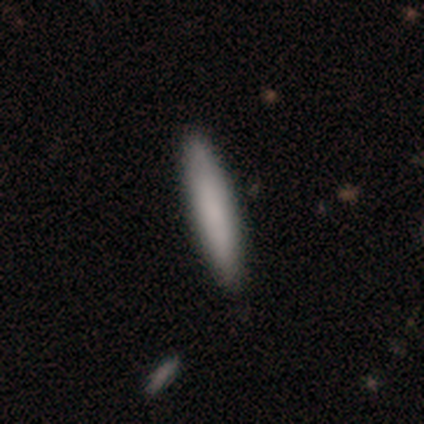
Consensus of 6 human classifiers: A smooth galaxy with no disk features (100%) that is cigar-shaped (100%). Merging: none (100%).